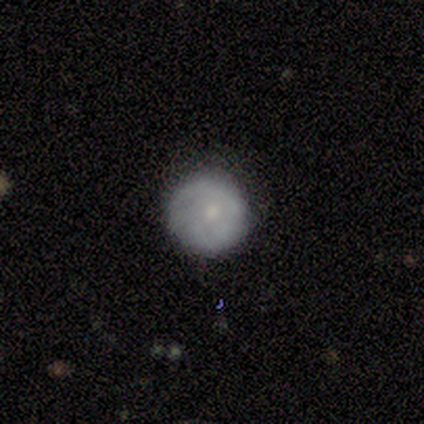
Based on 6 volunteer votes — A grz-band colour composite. It shows a smooth galaxy with no disk features (50%, tied with featured or disk) that is round (100%). Merging: none (83%).